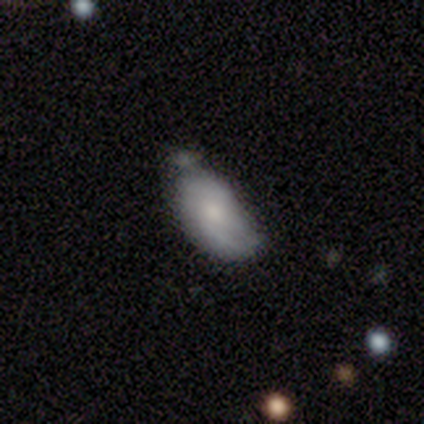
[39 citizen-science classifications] smooth_or_featured: smooth (p=0.62) [alt: featured or disk p=0.38]
how_rounded: in between (p=1.00)
merging: minor disturbance (p=0.41) [alt: none p=0.31]